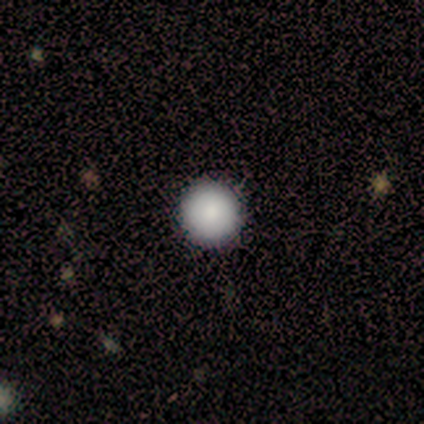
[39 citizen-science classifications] A smooth galaxy with no disk features (90%) that is round (100%). Merging: none (100%).